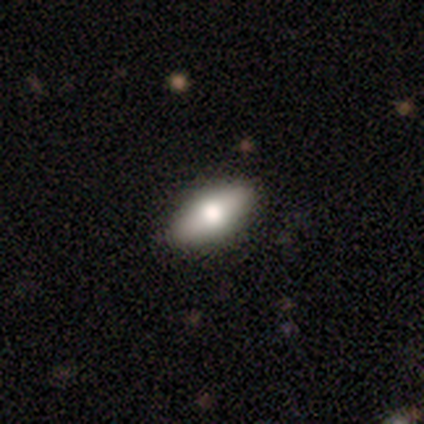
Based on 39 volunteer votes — Smooth or featured: smooth — 72% (featured or disk — 21%)
How rounded: in between — 75% (cigar-shaped — 18%)
Merging: none — 92% (major disturbance — 6%)